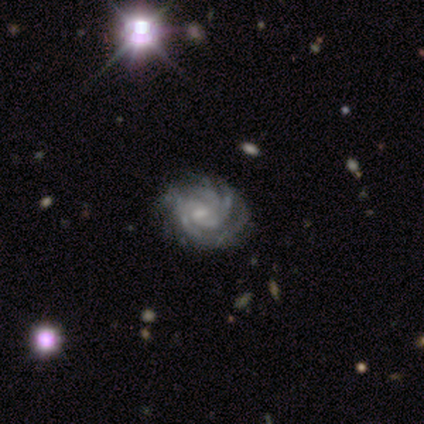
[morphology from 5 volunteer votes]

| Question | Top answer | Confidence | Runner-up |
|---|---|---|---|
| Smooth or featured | featured or disk | 100% | — |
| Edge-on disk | no | 100% | — |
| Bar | no | 60% | weak (40%) |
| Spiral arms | yes | 100% | — |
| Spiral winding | tight | 80% | medium (20%) |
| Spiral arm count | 3 | 80% | can't tell (20%) |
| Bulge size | small | 80% | moderate (20%) |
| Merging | none | 80% | minor disturbance (20%) |